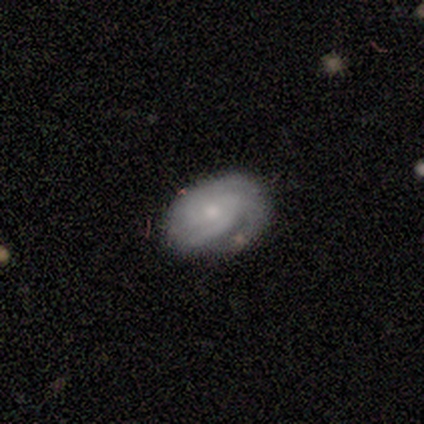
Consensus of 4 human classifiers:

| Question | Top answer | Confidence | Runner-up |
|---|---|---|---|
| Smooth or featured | smooth | 50% | tied: featured or disk (50%) |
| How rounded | round | 50% | tied: in between (50%) |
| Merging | none | 50% | tied: minor disturbance (50%) |